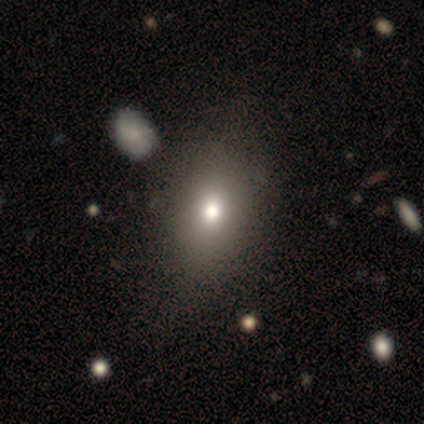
smooth 83%, featured or disk 9%, star or artifact 9%. Down the decision tree: how rounded — in between (90%); merging — none (66%).